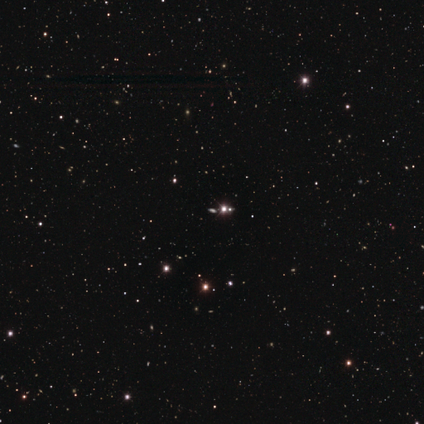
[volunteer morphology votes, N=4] Smooth or featured?
  - star or artifact: 100% *
  - smooth: 0%
  - featured or disk: 0%